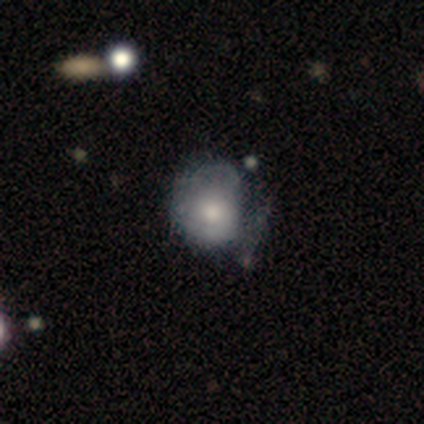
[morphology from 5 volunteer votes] Smooth or featured: smooth — 60% (featured or disk — 40%)
How rounded: round — 67% (in between — 33%)
Merging: none — 60% (major disturbance — 40%)